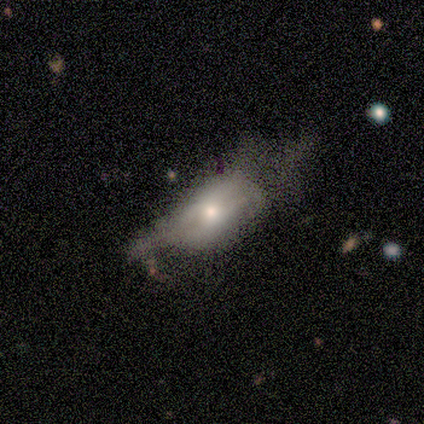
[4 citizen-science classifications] A smooth galaxy with no disk features (50%, tied with featured or disk) that is in between round and cigar-shaped (100%). Merging: major disturbance (50%).